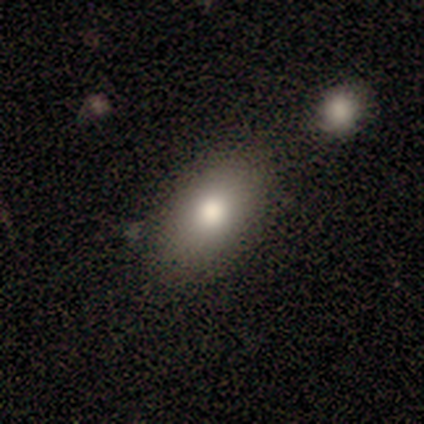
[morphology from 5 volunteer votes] smooth_or_featured: smooth (p=0.60) [alt: featured or disk p=0.20]
how_rounded: in between (p=1.00)
merging: none (p=1.00)